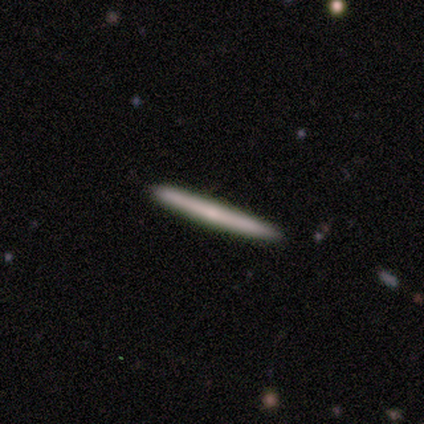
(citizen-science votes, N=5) A smooth galaxy with no disk features (60%) that is cigar-shaped (100%). Merging: none (100%).